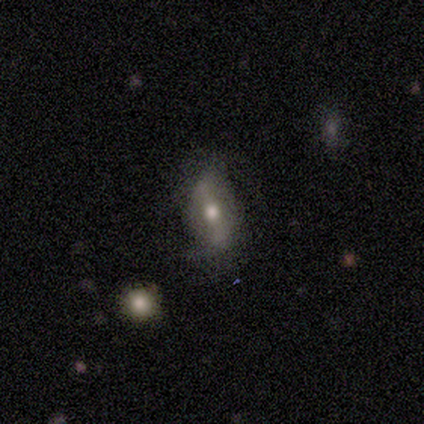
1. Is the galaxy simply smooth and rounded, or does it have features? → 60% featured or disk, 40% smooth, 0% star or artifact.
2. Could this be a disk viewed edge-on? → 100% no, 0% yes.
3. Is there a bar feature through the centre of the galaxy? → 67% strong, 33% weak, 0% no.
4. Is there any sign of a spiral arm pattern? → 100% yes, 0% no.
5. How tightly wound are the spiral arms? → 33% tight (tied), 33% medium (tied), 33% loose (tied).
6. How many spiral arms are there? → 100% 2, 0% 1, 0% 3, 0% 4, 0% more than 4, 0% can't tell.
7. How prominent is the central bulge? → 67% moderate, 33% small, 0% dominant, 0% large, 0% none.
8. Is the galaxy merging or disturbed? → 60% none, 40% minor disturbance, 0% major disturbance, 0% merger.